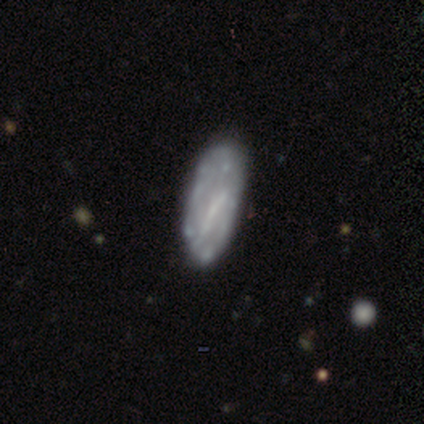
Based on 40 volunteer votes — Smooth or featured?
  - featured or disk: 68% *
  - smooth: 28%
  - star or artifact: 5%
Edge-on disk?
  - no: 96% *
  - yes: 4%
Bar?
  - no: 46% *
  - strong: 35%
  - weak: 19%
Spiral arms?
  - no: 73% *
  - yes: 27%
Bulge size?
  - none: 65% *
  - small: 31%
  - moderate: 4%
  - dominant: 0%
  - large: 0%
Merging?
  - none: 71% *
  - minor disturbance: 24%
  - major disturbance: 3%
  - merger: 3%